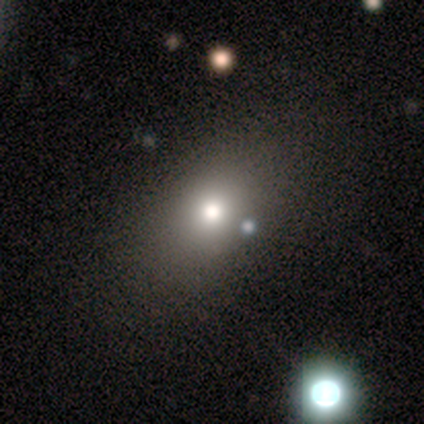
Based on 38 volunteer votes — This is likely a smooth galaxy (68%). How rounded: likely in between (69%). Merging: likely none (67%).